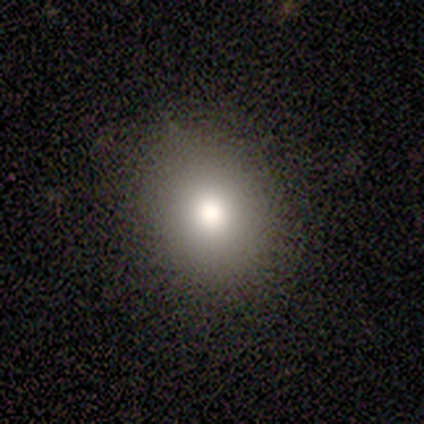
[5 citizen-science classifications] This appears to be a smooth galaxy with no disk features (100%) that is in between round and cigar-shaped (60%). Merging: none (100%).